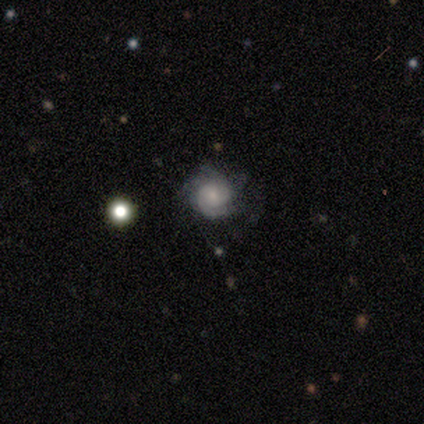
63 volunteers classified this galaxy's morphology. This is likely a featured or disk galaxy (76%). It is clearly not viewed edge-on (100%). Bar: clearly no (85%). Spiral arm pattern: clearly yes (85%). Spiral arm count: marginally can't tell (29%). Spiral winding: likely tight (66%). Central bulge: possibly small (56%). Merging: likely none (68%).